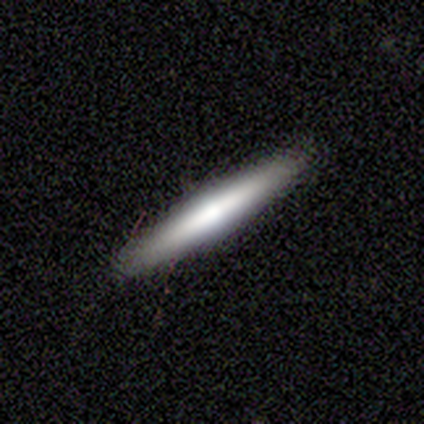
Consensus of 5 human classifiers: smooth_or_featured: smooth (p=0.60) [alt: featured or disk p=0.40]
how_rounded: cigar-shaped (p=1.00)
merging: none (p=0.80) [alt: minor disturbance p=0.20]